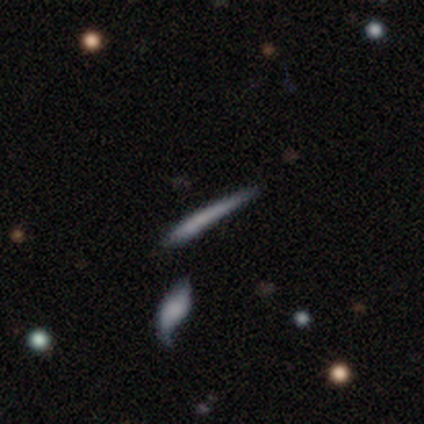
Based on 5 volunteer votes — This is likely a featured or disk galaxy (60%). It is clearly viewed edge-on (100%). Edge-on bulge: marginally boxy (33%, tied with none and rounded). Merging: likely minor disturbance (60%).